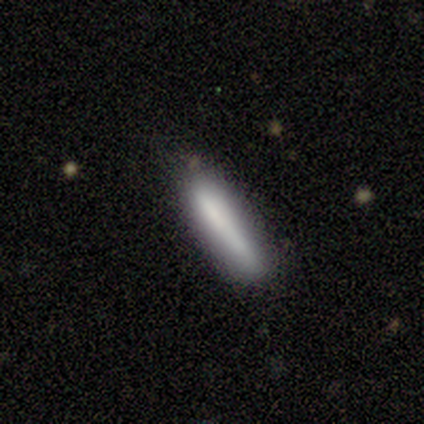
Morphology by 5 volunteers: A smooth galaxy with no disk features (80%) that is cigar-shaped (100%). Merging: none (75%).